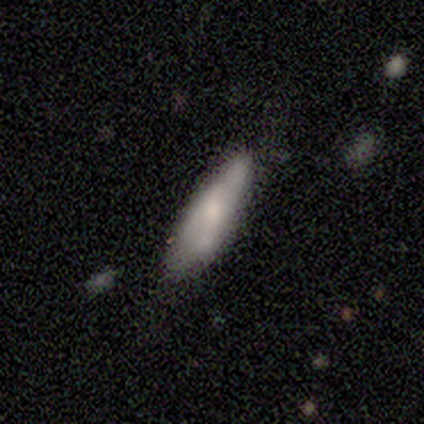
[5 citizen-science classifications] This appears to be a smooth galaxy with no disk features (100%) that is cigar-shaped (80%). Merging: none (80%).